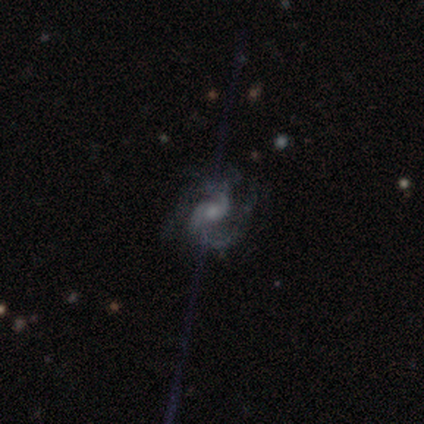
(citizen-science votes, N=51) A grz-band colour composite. It shows a featured or disk galaxy (90%) with no bar (63%), 2 (85%) medium (52%) spiral arms (100%) and a small central bulge (50%). Merging: none (70%).